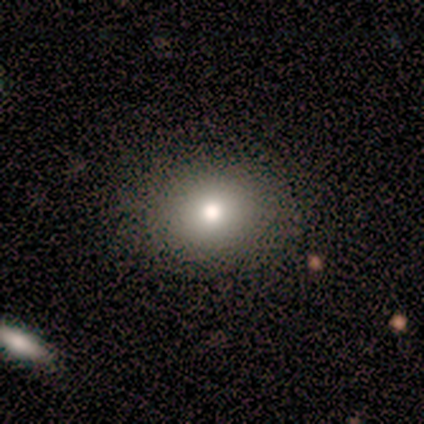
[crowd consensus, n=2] smooth-or-featured: smooth: 100% | featured or disk: 0% | star or artifact: 0%
  how-rounded: round: 100% | in between: 0% | cigar-shaped: 0%
  merging: none: 100% | minor disturbance: 0% | major disturbance: 0% | merger: 0%